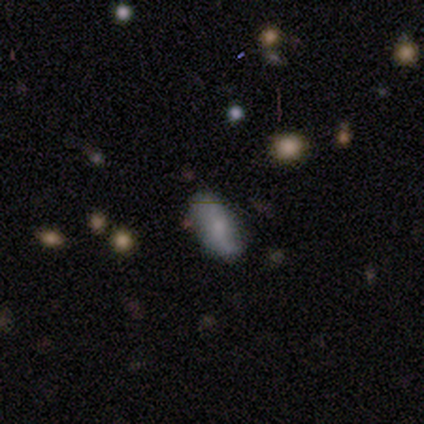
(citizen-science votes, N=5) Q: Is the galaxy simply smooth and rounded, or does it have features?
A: smooth — 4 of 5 (80%).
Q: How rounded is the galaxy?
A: in between — 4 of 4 (100%).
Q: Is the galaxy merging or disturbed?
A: none — 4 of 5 (80%).